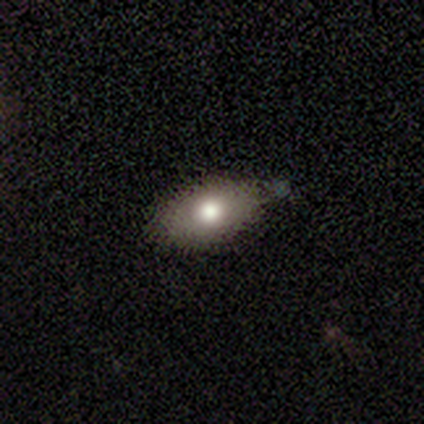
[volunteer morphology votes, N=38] Smooth or featured? 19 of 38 (50%) said smooth. How rounded? 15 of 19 (79%) said in between. Merging? 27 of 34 (79%) said none.